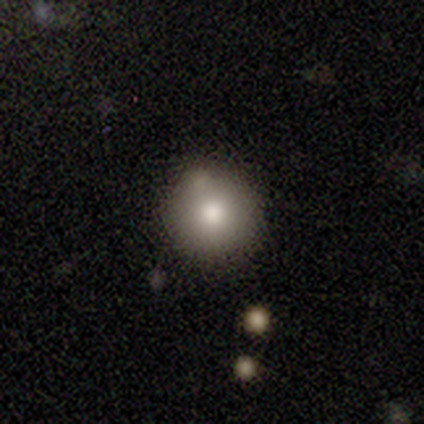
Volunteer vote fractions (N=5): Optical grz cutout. It shows a smooth galaxy with no disk features (100%) that is round (100%). Merging: minor disturbance (60%).